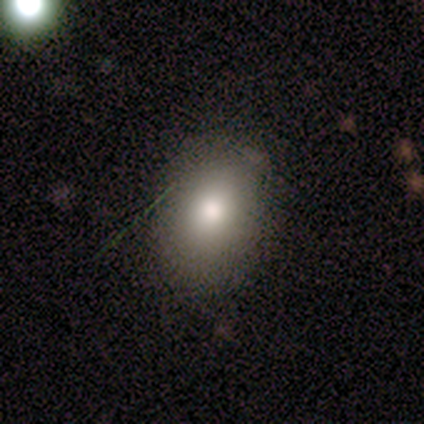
Morphology: type=smooth (67%); roundness=in between (100%); merging=none (100%).